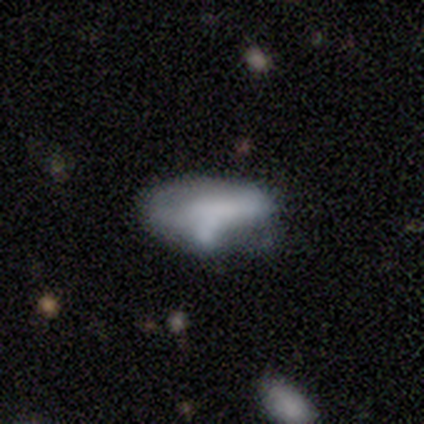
smooth-or-featured: featured or disk: 40% (tied) | star or artifact: 40% (tied) | smooth: 20%
  disk-edge-on: no: 100% | yes: 0%
    bar: no: 100% | strong: 0% | weak: 0%
    has-spiral-arms: no: 100% | yes: 0%
    bulge-size: moderate: 50% (tied) | none: 50% (tied) | dominant: 0% | large: 0% | small: 0%
  merging: minor disturbance: 67% | major disturbance: 33% | none: 0% | merger: 0%